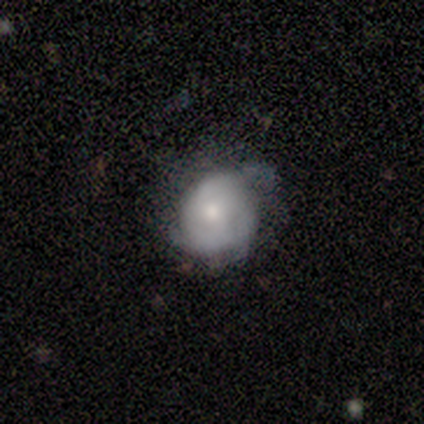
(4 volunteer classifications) Smooth or featured? 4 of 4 (100%) said smooth. How rounded? 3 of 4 (75%) said round. Merging? 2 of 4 (50%, tied with minor disturbance) said none.